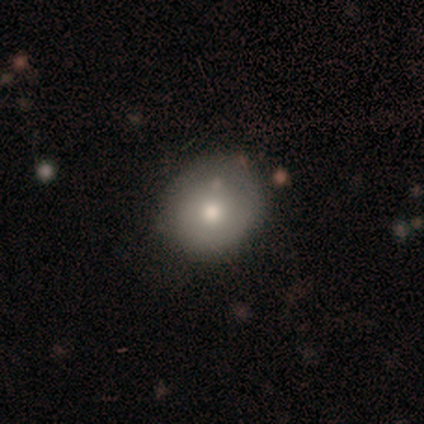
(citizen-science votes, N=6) Smooth or featured? 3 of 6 (50%) said smooth. How rounded? 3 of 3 (100%) said round. Merging? 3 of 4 (75%) said none.